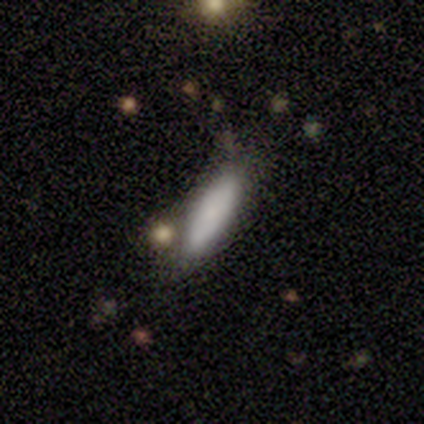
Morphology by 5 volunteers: Smooth or featured?
  - smooth: 100% *
  - featured or disk: 0%
  - star or artifact: 0%
How rounded?
  - in between: 80% *
  - round: 20%
  - cigar-shaped: 0%
Merging?
  - none: 40% * (tied)
  - merger: 40% * (tied)
  - minor disturbance: 20%
  - major disturbance: 0%